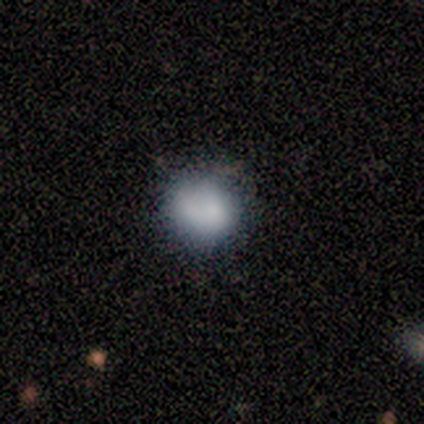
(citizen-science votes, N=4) Consensus on every question: smooth or featured — smooth (100%); how rounded — round (100%); merging — none (100%).